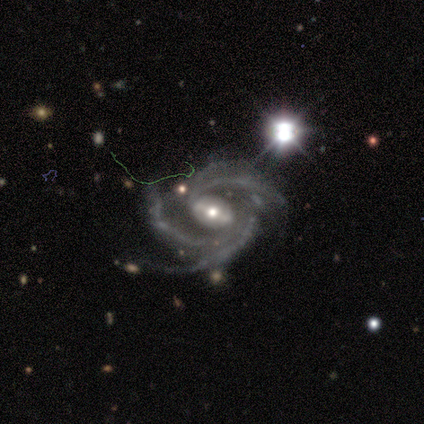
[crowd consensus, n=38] Overall: featured or disk (92%). Edge-on disk: no (100%). Bar: weak (46%; strong 40%). Spiral arms: yes (100%). Spiral arm count: 3 (51%; 4 34%). Spiral winding: medium (57%; tight 31%). Bulge size: moderate (51%; small 43%). Merging: none (54%; minor disturbance 27%).